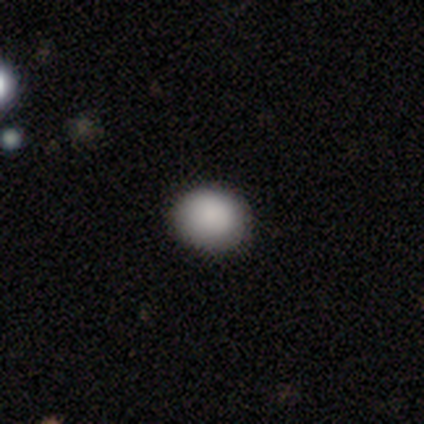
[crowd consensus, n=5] A smooth galaxy with no disk features (100%) that is round (60%).

Vote fractions:
- Smooth or featured? smooth: 100% / featured or disk: 0% / star or artifact: 0%
- How rounded? round: 60% / in between: 40% / cigar-shaped: 0%
- Merging? none: 80% / minor disturbance: 20% / major disturbance: 0% / merger: 0%